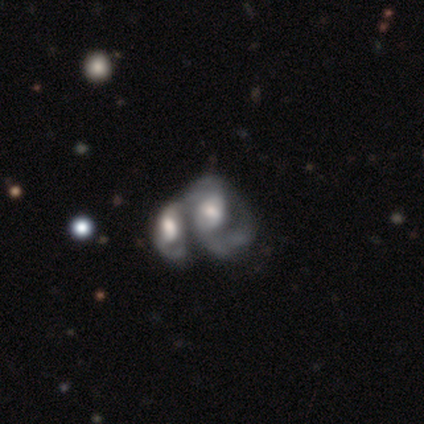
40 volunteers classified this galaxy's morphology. smooth_or_featured: featured or disk (p=0.82) [alt: smooth p=0.12]
disk_edge_on: no (p=1.00)
bar: no (p=0.55) [alt: weak p=0.36]
has_spiral_arms: yes (p=0.91) [alt: no p=0.09]
spiral_winding: medium (p=0.63) [alt: loose p=0.23]
spiral_arm_count: 2 (p=0.50) [alt: can't tell p=0.27]
bulge_size: moderate (p=0.48) [alt: large p=0.27]
merging: merger (p=0.76) [alt: major disturbance p=0.08]